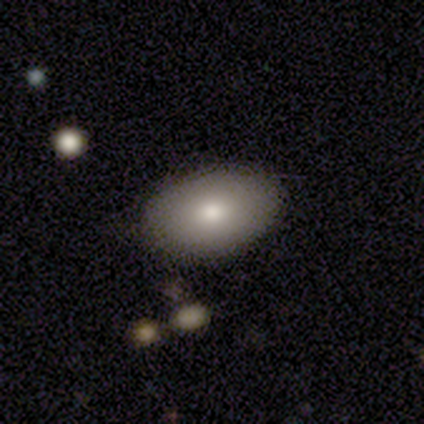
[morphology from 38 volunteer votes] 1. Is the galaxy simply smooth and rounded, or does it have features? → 82% smooth, 13% star or artifact, 5% featured or disk.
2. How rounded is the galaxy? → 97% in between, 3% cigar-shaped, 0% round.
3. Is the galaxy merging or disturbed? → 94% none, 6% minor disturbance, 0% major disturbance, 0% merger.